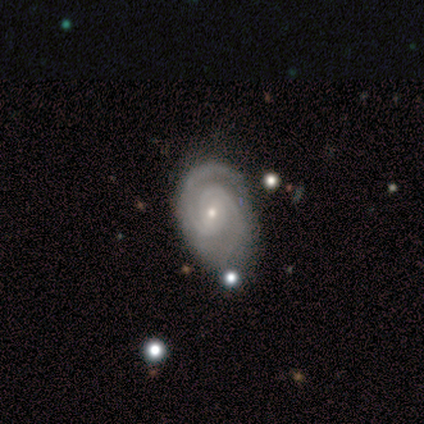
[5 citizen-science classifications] A featured or disk galaxy (100%) with no bar (80%), 2 (80%) tight (80%) spiral arms (100%) and a small central bulge (80%). Merging: none (80%).